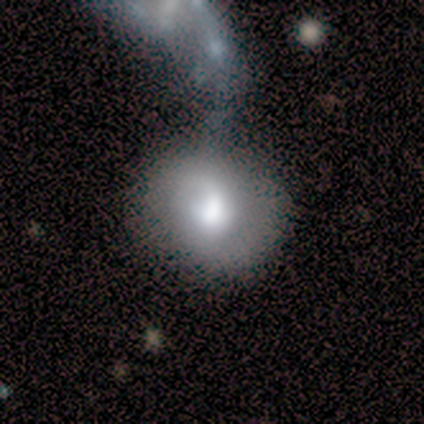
Volunteers were most divided on "merging": minor disturbance: 40%, none: 20%, major disturbance: 20%, merger: 20%. More confident: smooth or featured — smooth (80%); how rounded — round (75%).